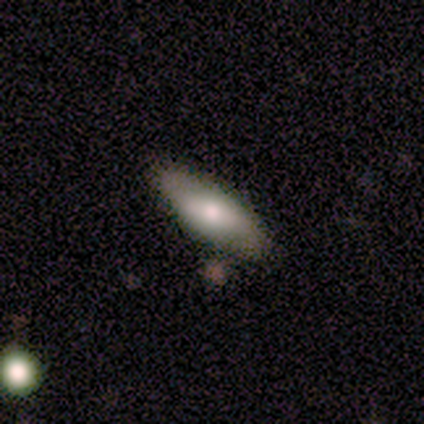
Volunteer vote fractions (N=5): Smooth or featured? smooth (80%)
How rounded? in between (100%)
Merging? none (100%)